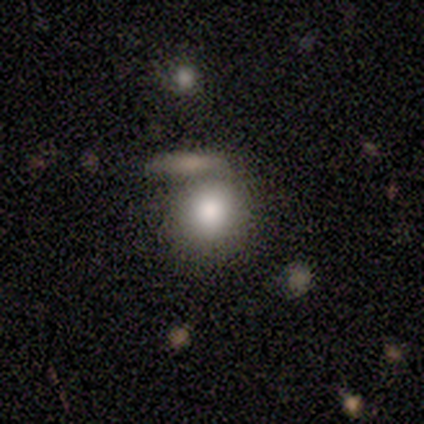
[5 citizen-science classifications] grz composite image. It shows a smooth galaxy with no disk features (100%) that is round (80%). Merging: merger (60%).